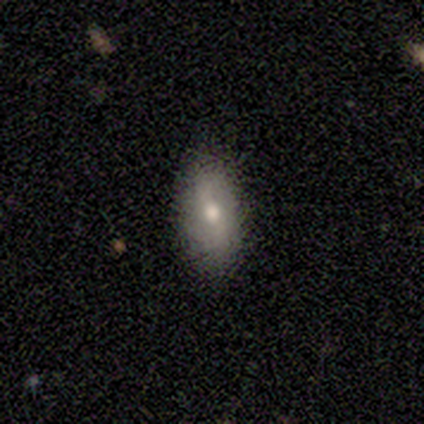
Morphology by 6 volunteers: A smooth galaxy with no disk features (67%) that is in between round and cigar-shaped (100%).

Vote fractions:
- Smooth or featured? smooth: 67% / featured or disk: 33% / star or artifact: 0%
- How rounded? in between: 100% / round: 0% / cigar-shaped: 0%
- Merging? none: 83% / minor disturbance: 17% / major disturbance: 0% / merger: 0%